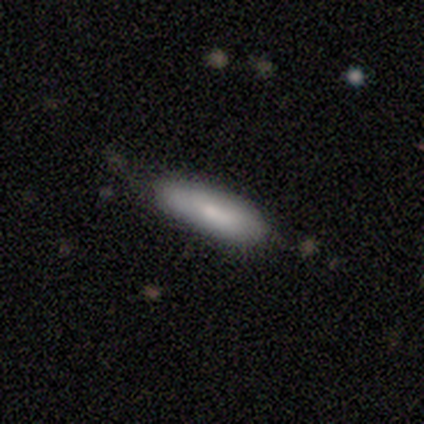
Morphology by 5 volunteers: Smooth or featured?
  - smooth: 40% * (tied)
  - featured or disk: 40% * (tied)
  - star or artifact: 20%
How rounded?
  - in between: 50% * (tied)
  - cigar-shaped: 50% * (tied)
  - round: 0%
Merging?
  - none: 50% *
  - minor disturbance: 25%
  - merger: 25%
  - major disturbance: 0%